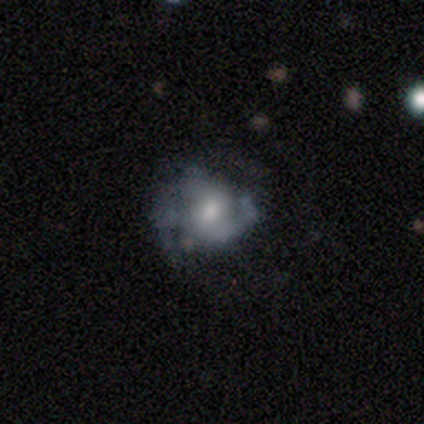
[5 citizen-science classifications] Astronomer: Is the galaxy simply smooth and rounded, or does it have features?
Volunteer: featured or disk — 80%.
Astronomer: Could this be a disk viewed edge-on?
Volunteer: no — 100%.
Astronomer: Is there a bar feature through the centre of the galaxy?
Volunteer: weak — 50%, tied with no at 50%.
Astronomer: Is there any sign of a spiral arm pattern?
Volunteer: yes — 75%.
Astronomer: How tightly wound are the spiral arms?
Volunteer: tight — 67%.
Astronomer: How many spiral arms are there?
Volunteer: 2 — 67%.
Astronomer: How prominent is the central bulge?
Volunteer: moderate — 50%.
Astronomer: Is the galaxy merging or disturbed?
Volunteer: none — 60%.